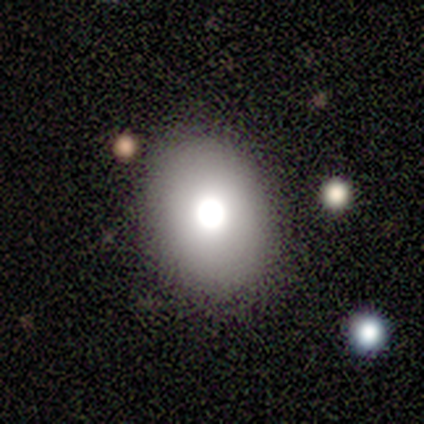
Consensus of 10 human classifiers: Q: Smooth or featured?
A: smooth (50%); runner-up: featured or disk (40%)
Q: How rounded?
A: in between (60%); runner-up: round (40%)
Q: Merging?
A: none (89%); runner-up: minor disturbance (11%)